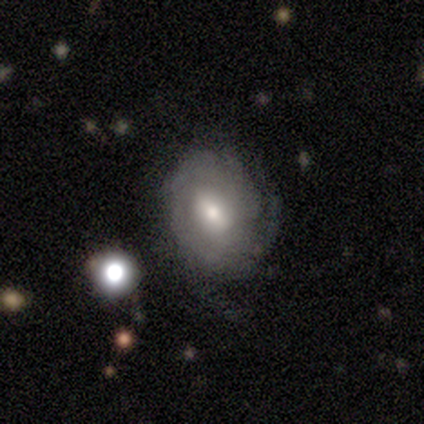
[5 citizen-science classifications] Smooth or featured? 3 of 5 (60%) said featured or disk. Edge-on disk? 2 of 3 (67%) said no. Bar? 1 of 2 (50%, tied with weak) said strong. Spiral arms? 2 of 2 (100%) said yes. Spiral winding? 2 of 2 (100%) said tight. Spiral arm count? 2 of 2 (100%) said can't tell. Bulge size? 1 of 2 (50%, tied with moderate) said large. Merging? 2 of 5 (40%, tied with major disturbance) said minor disturbance.